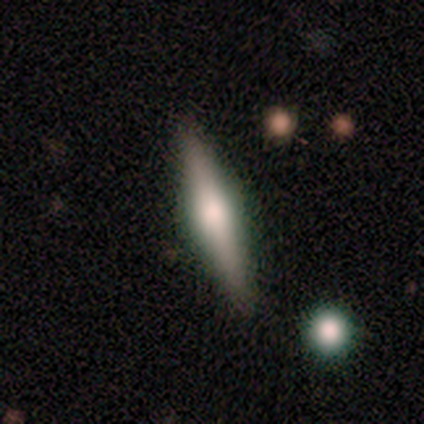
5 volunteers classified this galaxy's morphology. smooth_or_featured: featured or disk (p=0.80) [alt: smooth p=0.20]
disk_edge_on: yes (p=1.00)
edge_on_bulge: rounded (p=1.00)
merging: none (p=1.00)